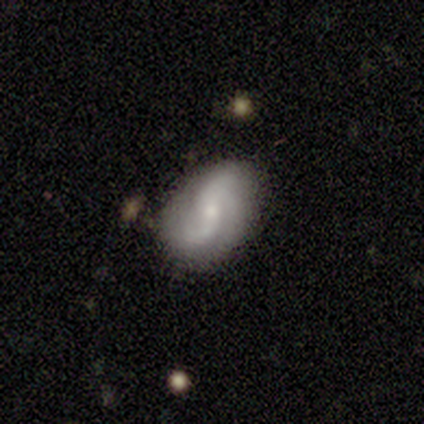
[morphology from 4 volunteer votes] A featured or disk galaxy (100%) with no bar (75%), 2 (75%) loose (100%) spiral arms (100%) and a moderate central bulge (75%). Merging: none (100%).